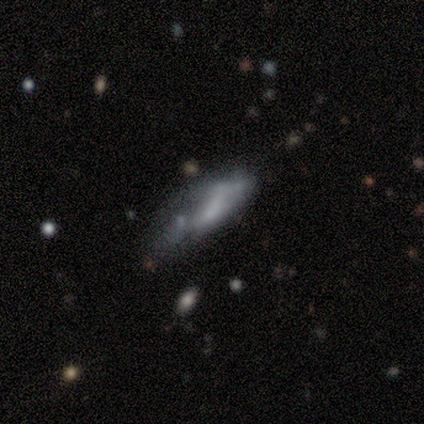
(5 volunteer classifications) This appears to be a smooth galaxy with no disk features (60%) that is cigar-shaped (67%). Merging: minor disturbance (40%, tied with major disturbance).